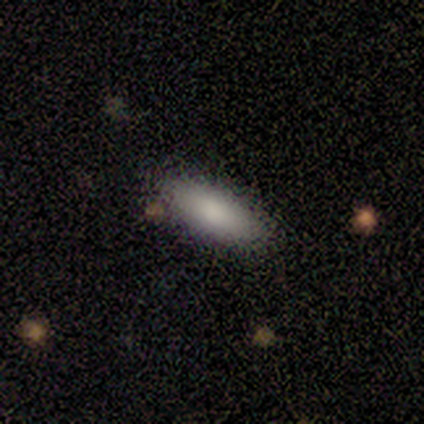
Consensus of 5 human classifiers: Smooth or featured? smooth (100%)
How rounded? cigar-shaped (60%)
Merging? none (100%)